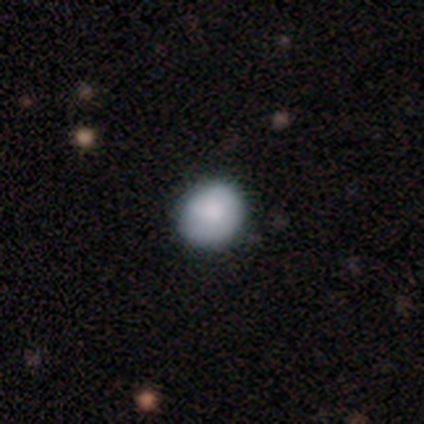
This appears to be a smooth galaxy with no disk features (77%) that is round (73%). Merging: none (74%).